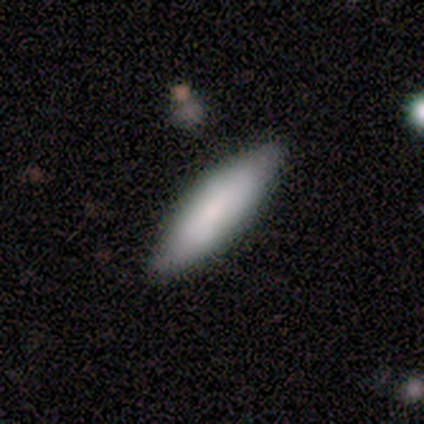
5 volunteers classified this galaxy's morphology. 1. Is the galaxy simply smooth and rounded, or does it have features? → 60% smooth, 40% featured or disk, 0% star or artifact.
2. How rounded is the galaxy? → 100% in between, 0% round, 0% cigar-shaped.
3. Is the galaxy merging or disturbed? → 80% none, 20% merger, 0% minor disturbance, 0% major disturbance.